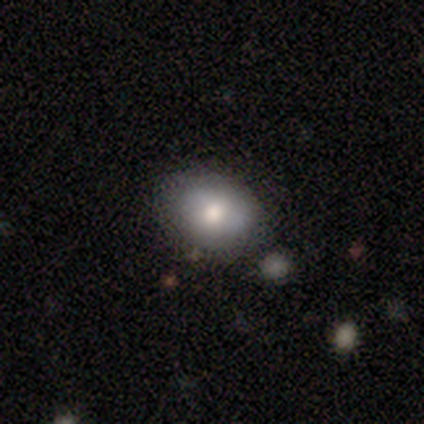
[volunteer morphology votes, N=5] Volunteers were most divided on "how rounded": in between: 67%, round: 33%, cigar-shaped: 0%. More confident: merging — none (100%); smooth or featured — smooth (60%).